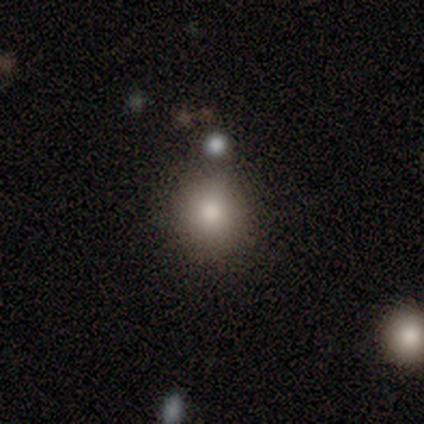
Q: Smooth or featured?
A: smooth (67%); runner-up: featured or disk (17%)
Q: How rounded?
A: round (100%)
Q: Merging?
A: none (60%); runner-up: minor disturbance (20%)